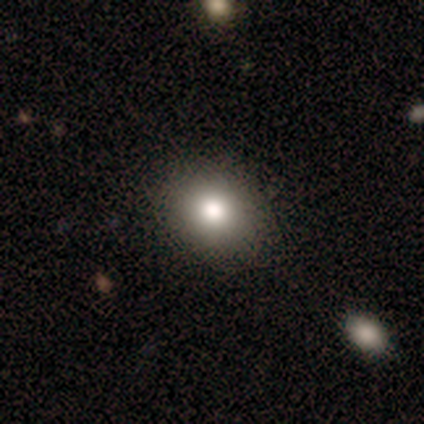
Smooth or featured? smooth (60%)
How rounded? round (67%)
Merging? none (100%)